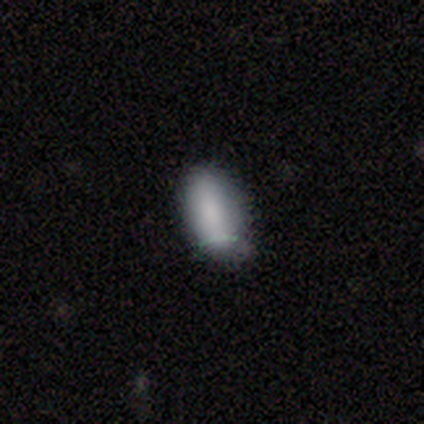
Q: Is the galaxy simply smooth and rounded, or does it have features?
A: smooth — 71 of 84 (85%).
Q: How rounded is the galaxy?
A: in between — 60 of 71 (85%).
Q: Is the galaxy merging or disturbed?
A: none — 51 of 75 (68%).